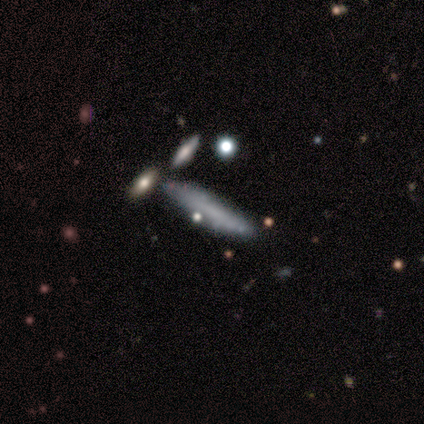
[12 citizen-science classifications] Overall: smooth (58%; featured or disk 33%). How rounded: cigar-shaped (100%). Merging: none (73%).